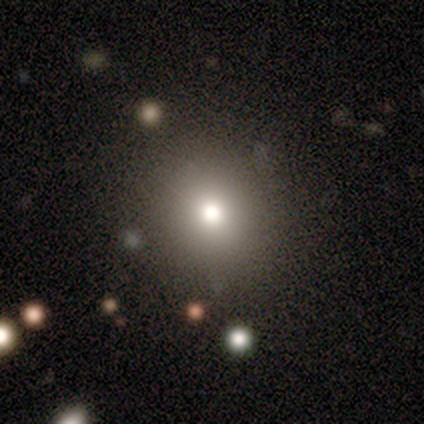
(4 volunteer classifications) A smooth galaxy with no disk features (100%) that is round (75%).

Vote fractions:
- Smooth or featured? smooth: 100% / featured or disk: 0% / star or artifact: 0%
- How rounded? round: 75% / in between: 25% / cigar-shaped: 0%
- Merging? none: 100% / minor disturbance: 0% / major disturbance: 0% / merger: 0%